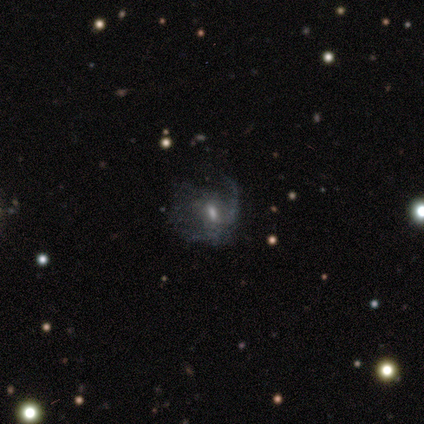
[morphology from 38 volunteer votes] Overall: featured or disk (82%). Edge-on disk: no (94%). Bar: no (55%; weak 41%). Spiral arms: yes (66%; no 34%). Spiral arm count: 1 (53%; can't tell 32%). Spiral winding: loose (47%; medium 32%). Bulge size: moderate (41%; small 31%). Merging: major disturbance (54%; none 26%).